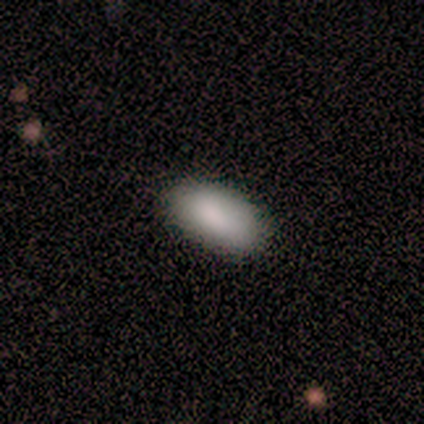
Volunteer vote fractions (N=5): Smooth or featured? smooth (80%)
How rounded? in between (100%)
Merging? none (100%)